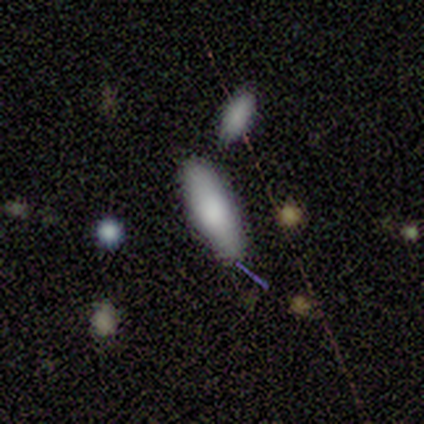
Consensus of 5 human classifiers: smooth_or_featured: smooth (p=0.60) [alt: featured or disk p=0.20]
how_rounded: cigar-shaped (p=0.67) [alt: in between p=0.33]
merging: none (p=0.75) [alt: minor disturbance p=0.25]